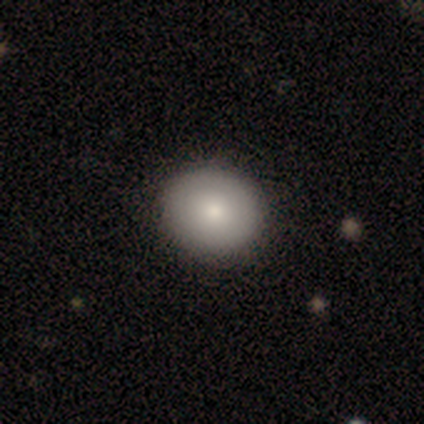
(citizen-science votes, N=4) This is possibly a smooth galaxy (50%). How rounded: clearly round (100%). Merging: clearly none (100%).